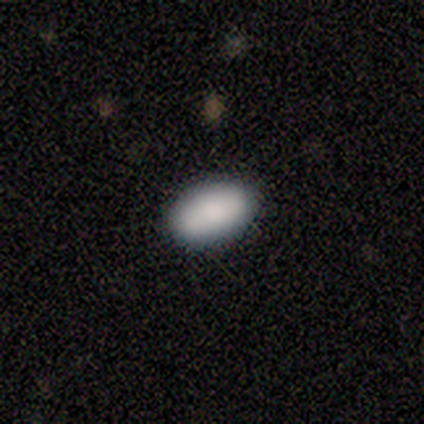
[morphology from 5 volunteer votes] Smooth or featured? smooth (80%)
How rounded? in between (100%)
Merging? none (100%)